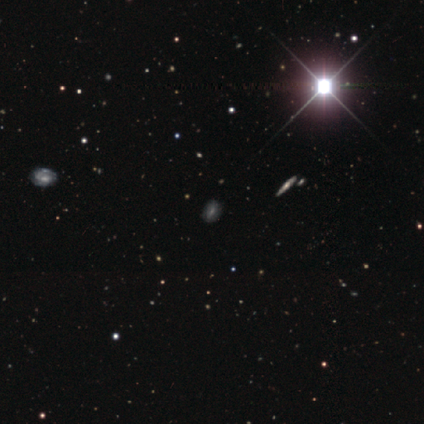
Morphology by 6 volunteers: Smooth or featured? star or artifact (67%)